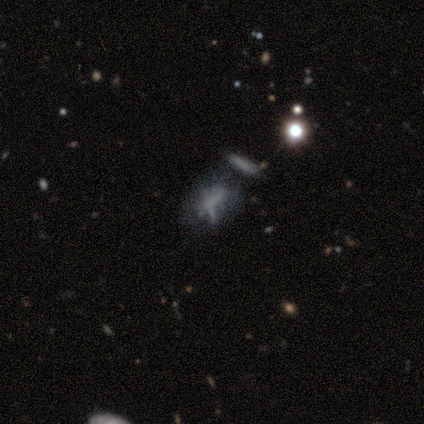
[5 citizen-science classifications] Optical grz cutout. It shows a featured or disk galaxy (40%, tied with star or artifact) with no bar (100%), no spiral arms (100%) and no central bulge (100%). Merging: minor disturbance (33%, tied with major disturbance and merger).